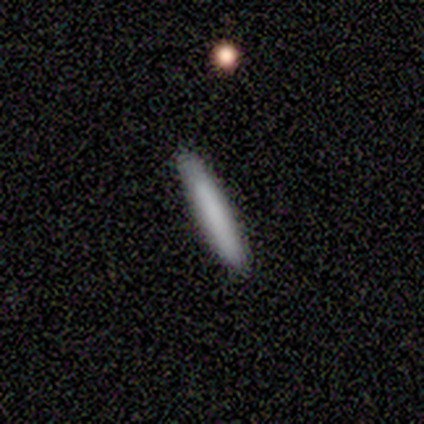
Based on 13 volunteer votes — Smooth or featured: smooth — 100%
How rounded: cigar-shaped — 100%
Merging: none — 92% (minor disturbance — 8%)